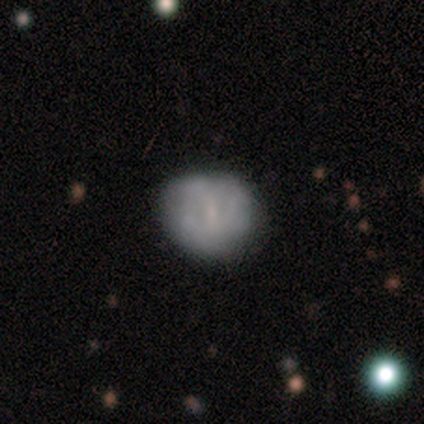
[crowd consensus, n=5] Morphology: type=smooth (60%); roundness=round (100%); merging=none (80%).